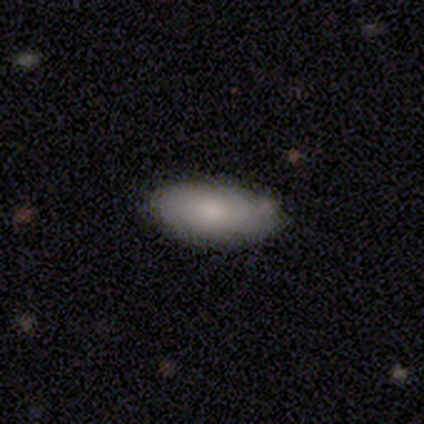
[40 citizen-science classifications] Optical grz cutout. It shows a smooth galaxy with no disk features (72%) that is in between round and cigar-shaped (100%). Merging: none (85%).